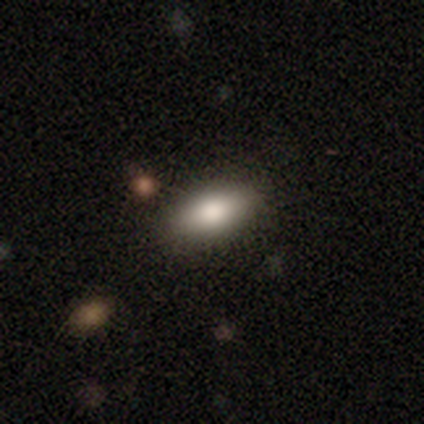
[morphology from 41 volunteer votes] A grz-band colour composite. It shows a smooth galaxy with no disk features (78%) that is in between round and cigar-shaped (78%). Merging: none (90%).